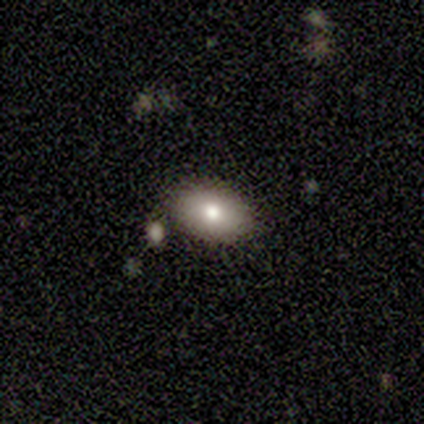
This appears to be a smooth galaxy with no disk features (50%, tied with star or artifact) that is in between round and cigar-shaped (100%). Merging: none (50%, tied with merger).